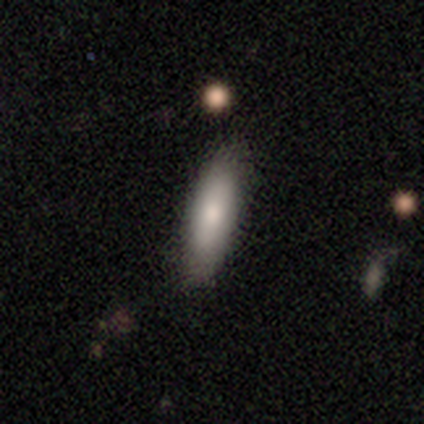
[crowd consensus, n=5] Volunteers were most divided on "how rounded": cigar-shaped: 75%, in between: 25%, round: 0%. More confident: merging — none (100%); smooth or featured — smooth (80%).